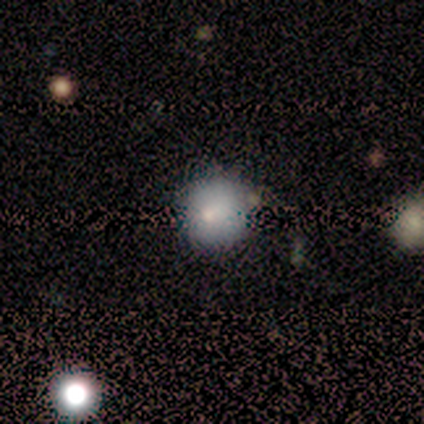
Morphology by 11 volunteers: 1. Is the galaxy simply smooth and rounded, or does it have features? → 82% smooth, 9% featured or disk, 9% star or artifact.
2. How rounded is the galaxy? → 78% round, 22% in between, 0% cigar-shaped.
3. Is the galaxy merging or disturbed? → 70% none, 30% minor disturbance, 0% major disturbance, 0% merger.